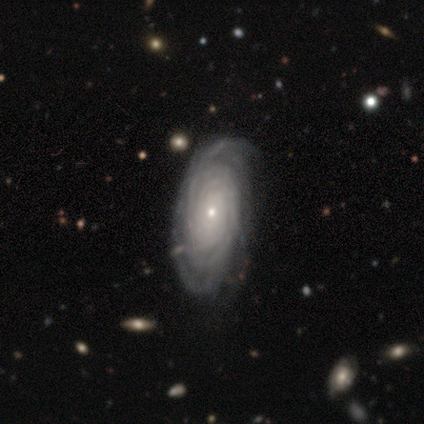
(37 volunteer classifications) smooth-or-featured: featured or disk: 89% | smooth: 8% | star or artifact: 3%
  disk-edge-on: no: 94% | yes: 6%
    bar: no: 87% | weak: 10% | strong: 3%
    has-spiral-arms: yes: 97% | no: 3%
      spiral-winding: tight: 80% | medium: 17% | loose: 3%
      spiral-arm-count: can't tell: 53% | more than 4: 37% | 4: 7% | 2: 3% | 1: 0% | 3: 0%
    bulge-size: small: 68% | moderate: 32% | dominant: 0% | large: 0% | none: 0%
  merging: none: 50% | minor disturbance: 14% | major disturbance: 8% | merger: 0%